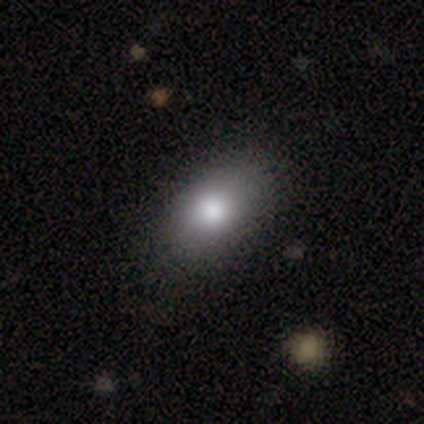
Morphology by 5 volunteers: A smooth galaxy with no disk features (100%) that is in between round and cigar-shaped (60%). Merging: none (80%).